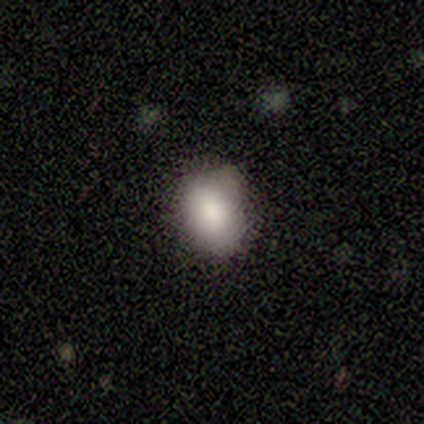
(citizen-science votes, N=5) Smooth or featured? smooth (100%)
How rounded? in between (80%)
Merging? none (80%)